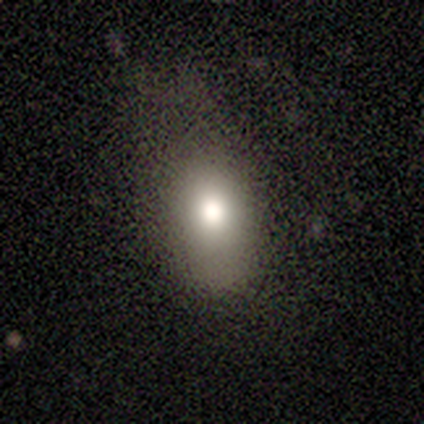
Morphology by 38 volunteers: smooth 82%, featured or disk 11%, star or artifact 8%. Down the decision tree: how rounded — in between (97%); merging — none (40%).